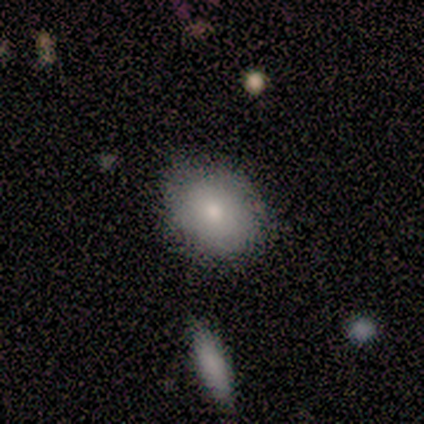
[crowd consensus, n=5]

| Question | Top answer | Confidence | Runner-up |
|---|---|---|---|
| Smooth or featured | smooth | 60% | featured or disk (40%) |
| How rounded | in between | 67% | round (33%) |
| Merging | none | 100% | — |